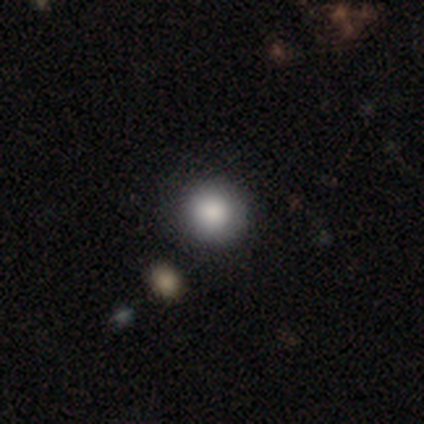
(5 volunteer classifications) Smooth or featured? 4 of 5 (80%) said smooth. How rounded? 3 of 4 (75%) said round. Merging? 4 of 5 (80%) said none.